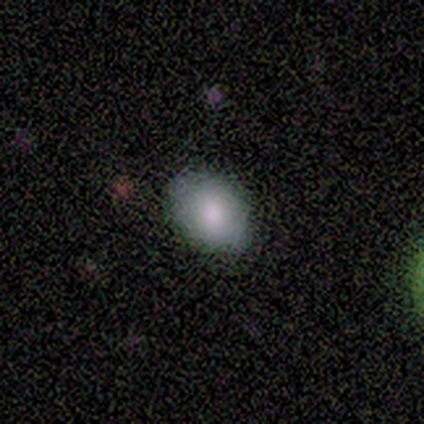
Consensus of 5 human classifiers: Smooth or featured: smooth — 60% (featured or disk — 40%)
How rounded: in between — 67% (round — 33%)
Merging: none — 80% (minor disturbance — 20%)